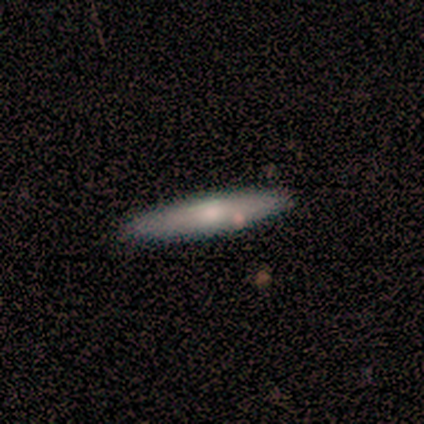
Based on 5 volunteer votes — A smooth galaxy with no disk features (80%) that is cigar-shaped (100%).

Vote fractions:
- Smooth or featured? smooth: 80% / featured or disk: 20% / star or artifact: 0%
- How rounded? cigar-shaped: 100% / round: 0% / in between: 0%
- Merging? none: 100% / minor disturbance: 0% / major disturbance: 0% / merger: 0%